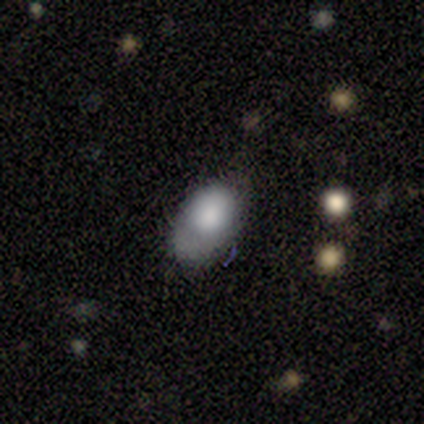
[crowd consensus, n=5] smooth-or-featured: smooth: 80% | featured or disk: 20% | star or artifact: 0%
  how-rounded: in between: 75% | round: 25% | cigar-shaped: 0%
  merging: none: 40% | minor disturbance: 20% | major disturbance: 20% | merger: 20%